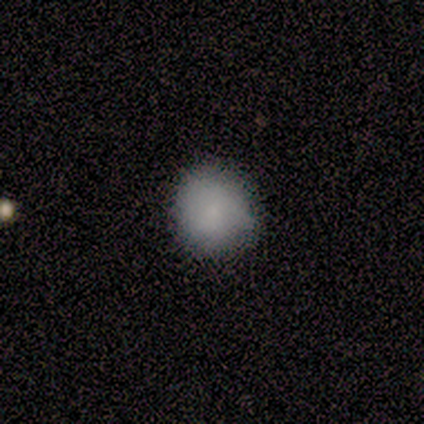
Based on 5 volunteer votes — Smooth or featured? smooth (100%)
How rounded? round (80%)
Merging? none (80%)